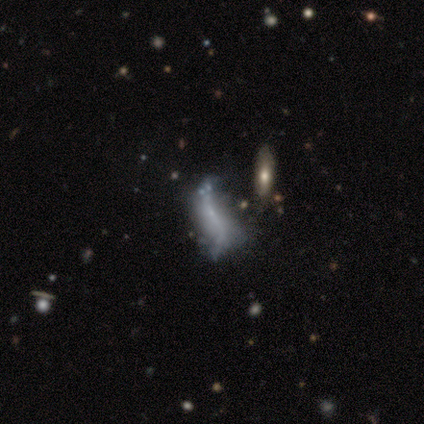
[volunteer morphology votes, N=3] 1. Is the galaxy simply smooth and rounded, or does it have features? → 67% smooth, 33% featured or disk, 0% star or artifact.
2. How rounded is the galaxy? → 100% in between, 0% round, 0% cigar-shaped.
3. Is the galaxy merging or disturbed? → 67% none, 33% major disturbance, 0% minor disturbance, 0% merger.